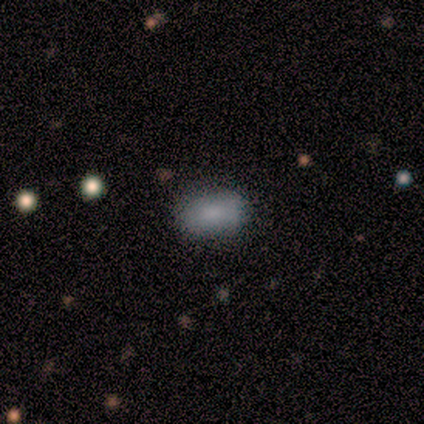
Smooth or featured?
  - smooth: 100% *
  - featured or disk: 0%
  - star or artifact: 0%
How rounded?
  - in between: 80% *
  - cigar-shaped: 20%
  - round: 0%
Merging?
  - none: 80% *
  - minor disturbance: 20%
  - major disturbance: 0%
  - merger: 0%